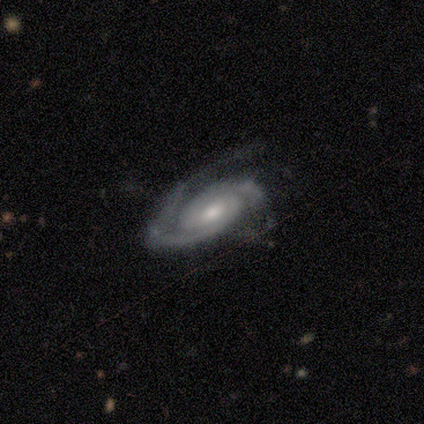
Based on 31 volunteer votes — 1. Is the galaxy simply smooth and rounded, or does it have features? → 94% featured or disk, 3% smooth, 3% star or artifact.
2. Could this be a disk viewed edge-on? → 100% no, 0% yes.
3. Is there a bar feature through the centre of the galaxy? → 48% weak, 41% no, 10% strong.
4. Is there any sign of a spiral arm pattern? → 100% yes, 0% no.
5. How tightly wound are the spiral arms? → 69% tight, 24% medium, 7% loose.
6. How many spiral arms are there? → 86% 2, 14% 1, 0% 3, 0% 4, 0% more than 4, 0% can't tell.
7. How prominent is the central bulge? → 69% moderate, 21% small, 7% large, 3% none, 0% dominant.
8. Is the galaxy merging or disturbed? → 67% none, 23% major disturbance, 10% minor disturbance, 0% merger.